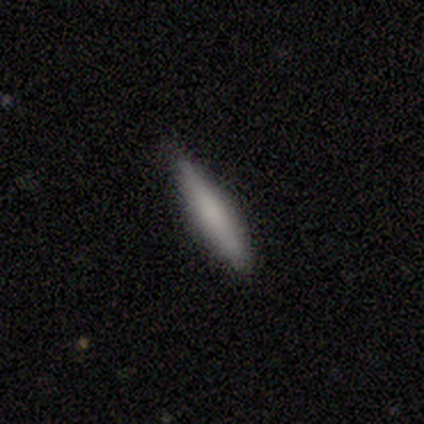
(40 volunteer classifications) smooth_or_featured: smooth (p=0.78) [alt: featured or disk p=0.23]
how_rounded: cigar-shaped (p=0.90) [alt: in between p=0.10]
merging: none (p=0.93) [alt: minor disturbance p=0.05]